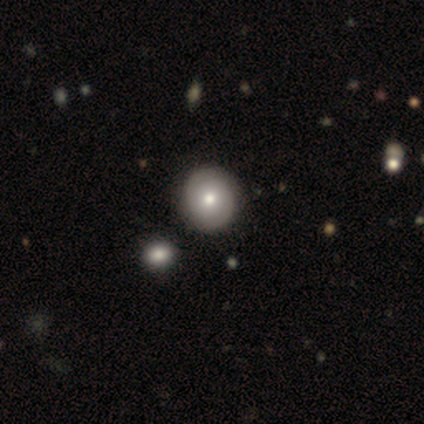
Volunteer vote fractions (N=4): featured or disk 75%, smooth 25%, star or artifact 0%. Down the decision tree: edge-on disk — no (100%); bar — no (100%); spiral arms — yes (67%); spiral arm count — 2 (50%, tied with can't tell); spiral winding — tight (100%); bulge size — moderate (67%); merging — none (75%).